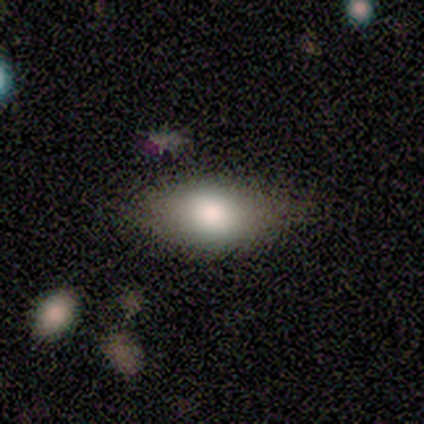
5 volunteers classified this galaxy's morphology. Volunteers were most divided on "merging": none: 60%, minor disturbance: 40%, major disturbance: 0%, merger: 0%. More confident: how rounded — in between (100%); smooth or featured — smooth (80%).